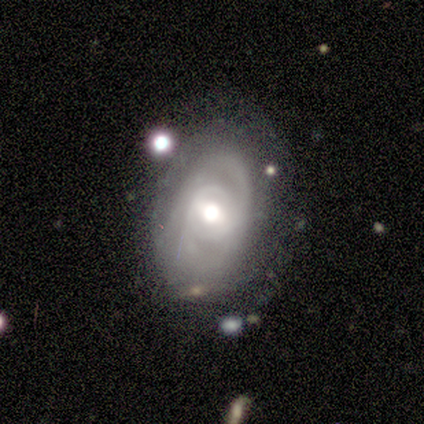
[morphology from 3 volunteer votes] This is likely a featured or disk galaxy (67%). It is clearly not viewed edge-on (100%). Bar: clearly no (100%). Spiral arm pattern: possibly yes (50%, tied with no). Spiral arm count: clearly 2 (100%). Spiral winding: clearly tight (100%). Central bulge: possibly moderate (50%, tied with small). Merging: likely none (67%).